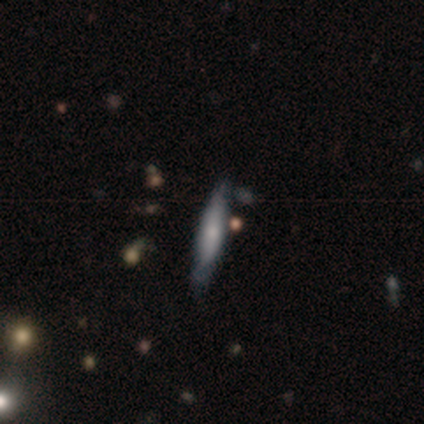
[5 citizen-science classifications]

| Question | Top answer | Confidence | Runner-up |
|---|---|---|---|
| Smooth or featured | smooth | 80% | star or artifact (20%) |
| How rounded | cigar-shaped | 100% | — |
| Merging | none | 100% | — |